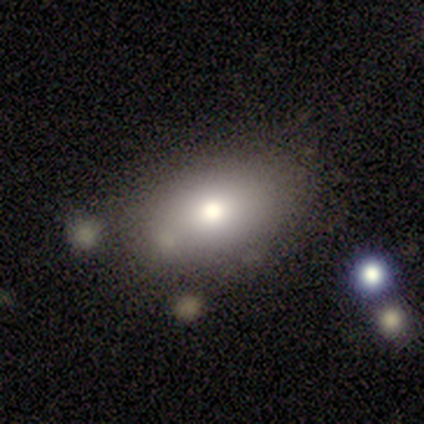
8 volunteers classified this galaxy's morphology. This appears to be a smooth galaxy with no disk features (88%) that is in between round and cigar-shaped (86%). Merging: none (43%).